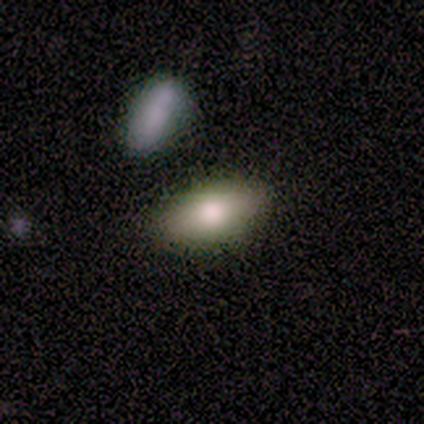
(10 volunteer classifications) This appears to be a smooth galaxy with no disk features (60%) that is in between round and cigar-shaped (100%). Merging: none (100%).